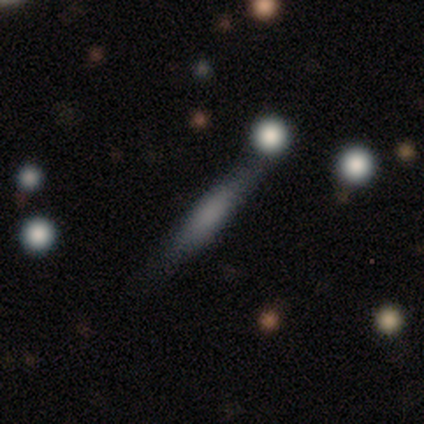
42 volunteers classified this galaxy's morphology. A smooth galaxy with no disk features (64%) that is cigar-shaped (81%).

Vote fractions:
- Smooth or featured? smooth: 64% / featured or disk: 29% / star or artifact: 7%
- How rounded? cigar-shaped: 81% / in between: 19% / round: 0%
- Merging? none: 74% / minor disturbance: 10% / major disturbance: 8% / merger: 8%